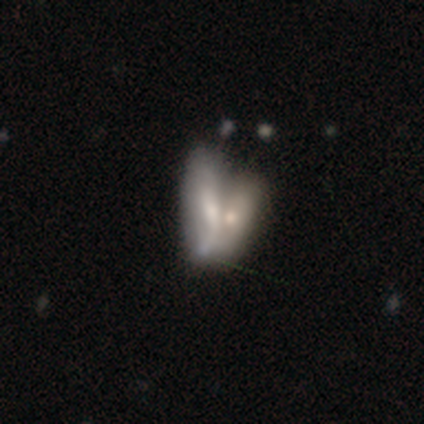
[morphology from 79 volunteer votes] featured or disk 52%, smooth 42%, star or artifact 6%. Down the decision tree: edge-on disk — no (85%); bar — no (77%); spiral arms — no (77%); bulge size — moderate (37%); merging — merger (70%).